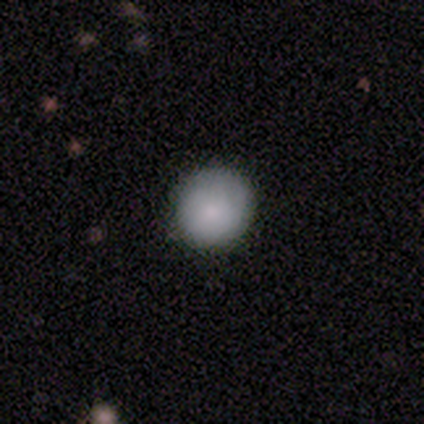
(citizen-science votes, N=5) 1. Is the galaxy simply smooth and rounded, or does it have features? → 80% smooth, 20% star or artifact, 0% featured or disk.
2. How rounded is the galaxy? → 100% round, 0% in between, 0% cigar-shaped.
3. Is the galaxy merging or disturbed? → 75% none, 25% major disturbance, 0% minor disturbance, 0% merger.